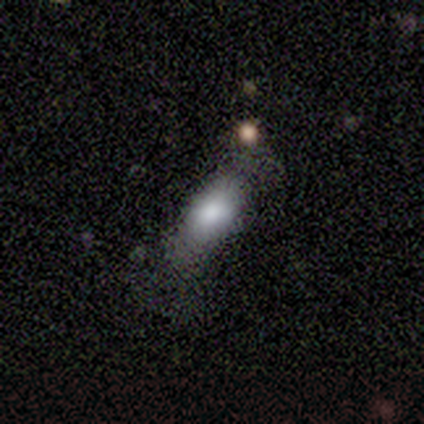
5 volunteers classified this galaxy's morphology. Smooth or featured: smooth — 80% (featured or disk — 20%)
How rounded: in between — 75% (cigar-shaped — 25%)
Merging: none — 60% (minor disturbance — 20%)